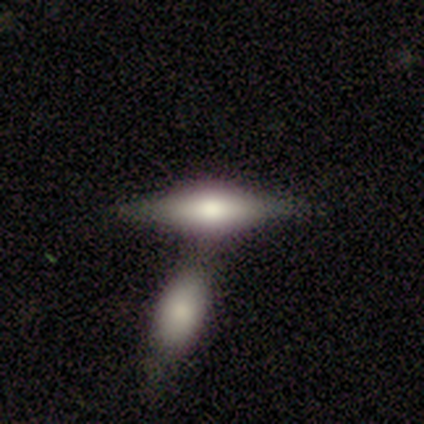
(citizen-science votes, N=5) Volunteers were most divided on "edge-on bulge": rounded: 60%, boxy: 40%, none: 0%. More confident: smooth or featured — featured or disk (100%); edge-on disk — yes (100%); merging — merger (60%).